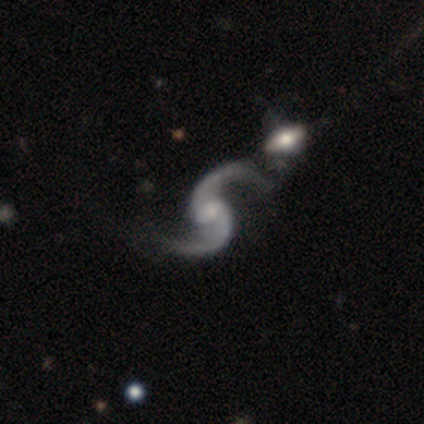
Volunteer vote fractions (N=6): This appears to be a featured or disk galaxy (100%) with a weak bar (67%), 2 (100%) loose (67%) spiral arms (100%) and a small central bulge (50%). Merging: none (50%).